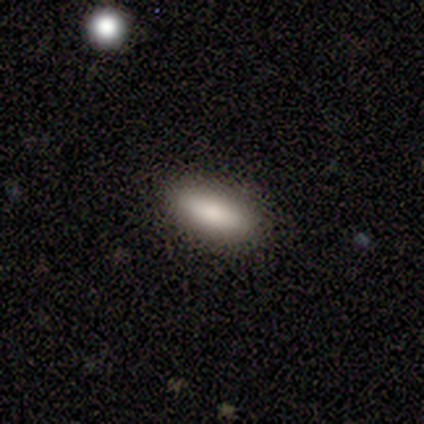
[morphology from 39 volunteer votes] Overall: smooth (82%). How rounded: in between (84%). Merging: none (82%).